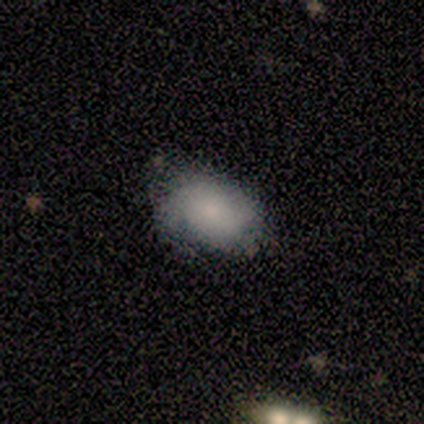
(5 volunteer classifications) This appears to be a smooth galaxy with no disk features (60%) that is in between round and cigar-shaped (100%). Merging: major disturbance (50%).